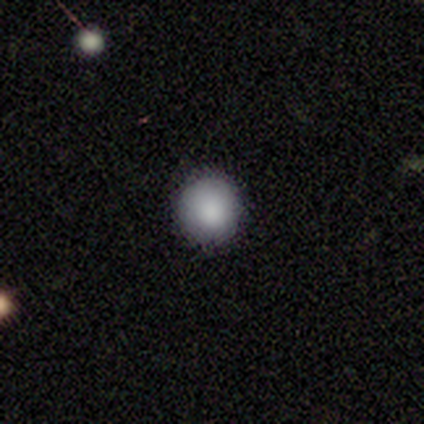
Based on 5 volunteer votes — A smooth galaxy with no disk features (100%) that is round (100%). Merging: none (100%).